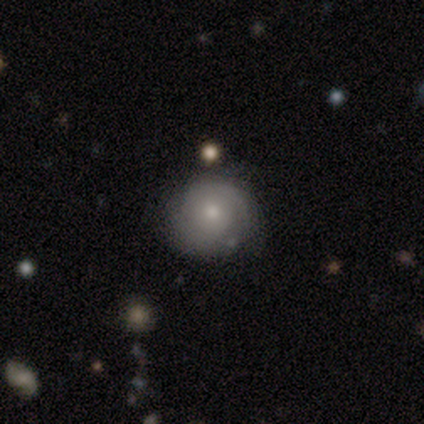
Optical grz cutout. It shows a smooth galaxy with no disk features (100%) that is round (86%). Merging: none (71%).